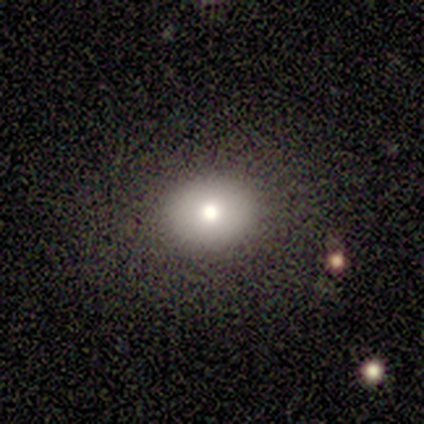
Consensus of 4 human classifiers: Smooth or featured: smooth — 75% (featured or disk — 25%)
How rounded: in between — 67% (round — 33%)
Merging: none — 75% (minor disturbance — 25%)